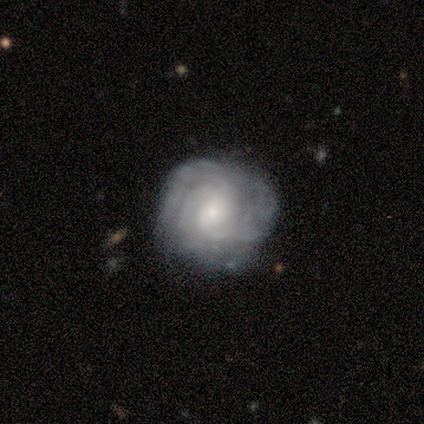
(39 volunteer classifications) A featured or disk galaxy (85%) with no bar (61%), 3 (42%) tight (71%) spiral arms (94%) and a small central bulge (70%). Merging: none (69%).